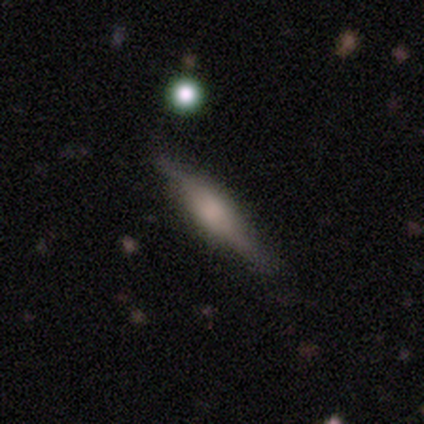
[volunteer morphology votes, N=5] Smooth or featured? 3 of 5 (60%) said smooth. How rounded? 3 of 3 (100%) said cigar-shaped. Merging? 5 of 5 (100%) said none.